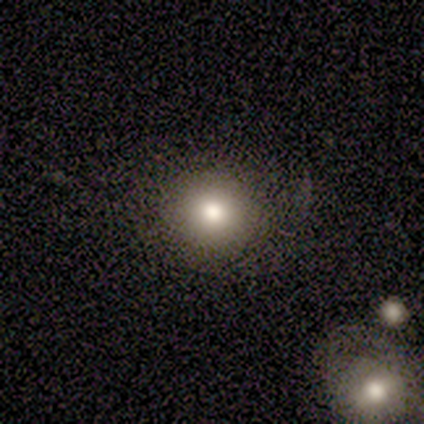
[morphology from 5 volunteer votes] type=smooth (100%); roundness=round (100%); merging=none (100%).